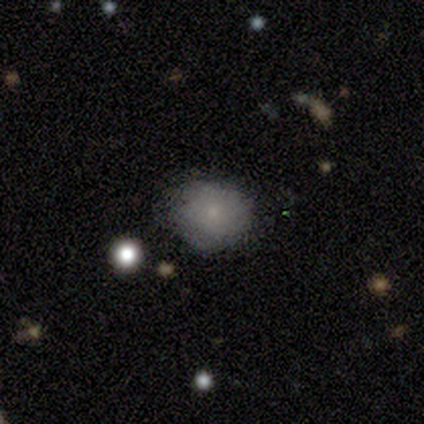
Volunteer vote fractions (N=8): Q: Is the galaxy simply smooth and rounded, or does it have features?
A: smooth — 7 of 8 (88%).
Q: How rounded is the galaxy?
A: round — 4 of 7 (57%).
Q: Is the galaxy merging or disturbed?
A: none — 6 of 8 (75%).